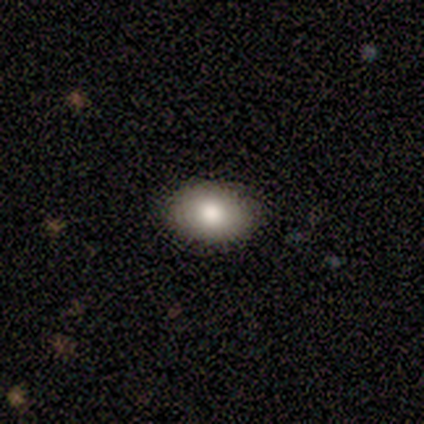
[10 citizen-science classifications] A smooth galaxy with no disk features (70%) that is in between round and cigar-shaped (100%).

Vote fractions:
- Smooth or featured? smooth: 70% / featured or disk: 30% / star or artifact: 0%
- How rounded? in between: 100% / round: 0% / cigar-shaped: 0%
- Merging? none: 100% / minor disturbance: 0% / major disturbance: 0% / merger: 0%